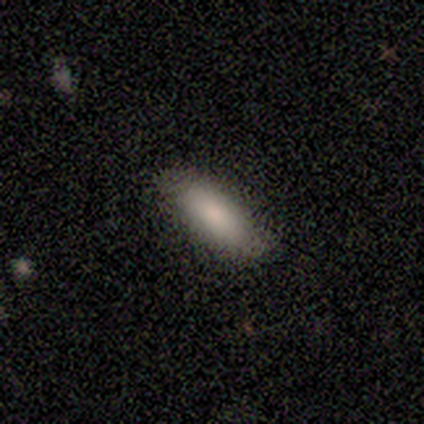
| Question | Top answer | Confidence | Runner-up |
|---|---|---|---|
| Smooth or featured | smooth | 100% | — |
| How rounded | in between | 60% | cigar-shaped (40%) |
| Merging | none | 60% | minor disturbance (40%) |